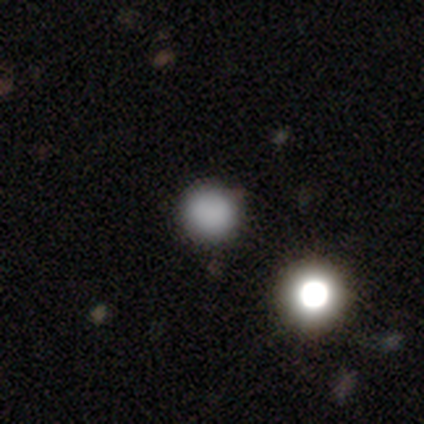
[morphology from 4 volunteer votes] smooth_or_featured: smooth (p=1.00)
how_rounded: round (p=1.00)
merging: none (p=1.00)